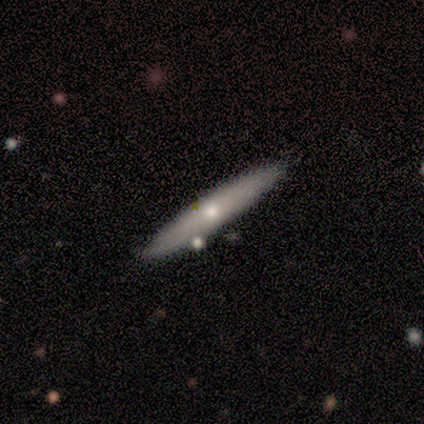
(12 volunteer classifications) This appears to be a smooth galaxy with no disk features (58%) that is cigar-shaped (86%). Merging: none (75%).